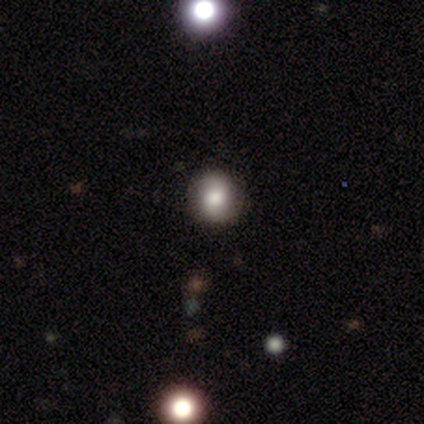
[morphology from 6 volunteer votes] smooth_or_featured: smooth (p=0.67) [alt: featured or disk p=0.33]
how_rounded: round (p=0.75) [alt: in between p=0.25]
merging: none (p=1.00)